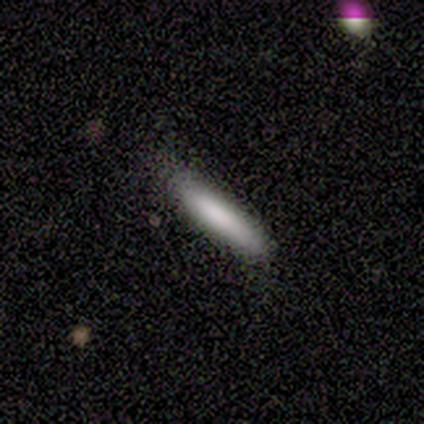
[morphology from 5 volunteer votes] smooth-or-featured: smooth: 80% | star or artifact: 20% | featured or disk: 0%
  how-rounded: cigar-shaped: 75% | in between: 25% | round: 0%
  merging: minor disturbance: 75% | none: 25% | major disturbance: 0% | merger: 0%